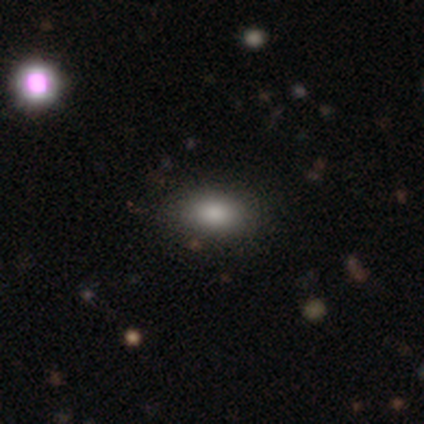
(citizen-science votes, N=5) Q: Smooth or featured?
A: smooth (100%)
Q: How rounded?
A: in between (100%)
Q: Merging?
A: none (80%); runner-up: minor disturbance (20%)